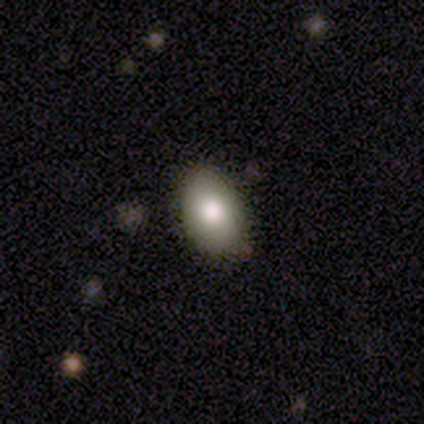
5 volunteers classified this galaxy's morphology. smooth-or-featured: smooth: 80% | featured or disk: 20% | star or artifact: 0%
  how-rounded: in between: 100% | round: 0% | cigar-shaped: 0%
  merging: none: 80% | minor disturbance: 20% | major disturbance: 0% | merger: 0%